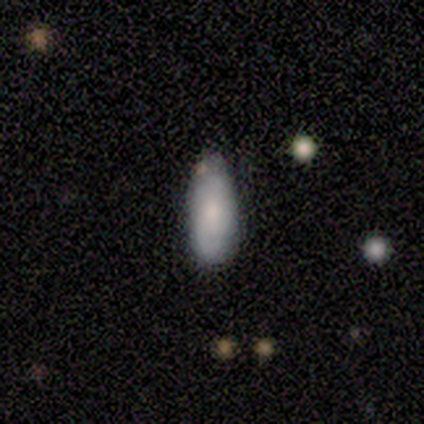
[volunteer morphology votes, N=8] Overall: smooth (100%). How rounded: in between (62%; cigar-shaped 38%). Merging: none (62%; minor disturbance 38%).